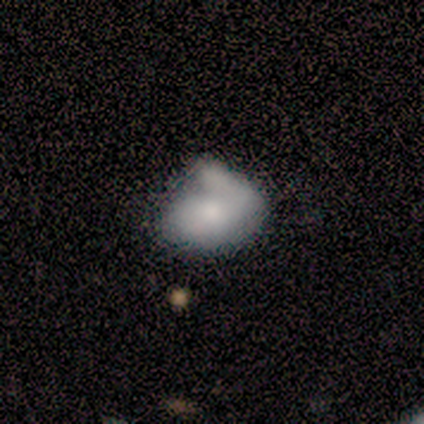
This appears to be a smooth galaxy with no disk features (80%) that is in between round and cigar-shaped (92%). Merging: minor disturbance (47%).